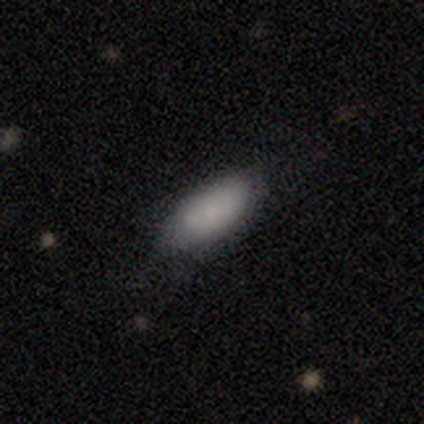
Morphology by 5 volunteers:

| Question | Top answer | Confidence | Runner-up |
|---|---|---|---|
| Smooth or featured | smooth | 100% | — |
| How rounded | in between | 60% | cigar-shaped (40%) |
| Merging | none | 80% | major disturbance (20%) |